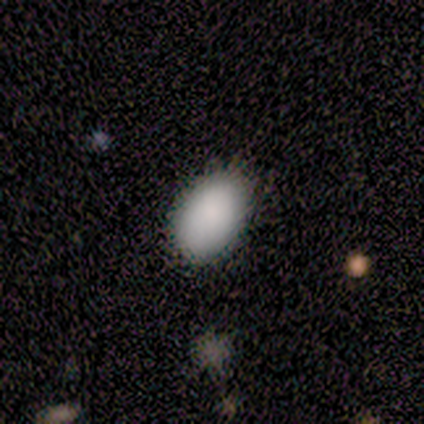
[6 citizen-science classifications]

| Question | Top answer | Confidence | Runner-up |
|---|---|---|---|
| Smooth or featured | smooth | 100% | — |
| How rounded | in between | 100% | — |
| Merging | none | 67% | minor disturbance (33%) |